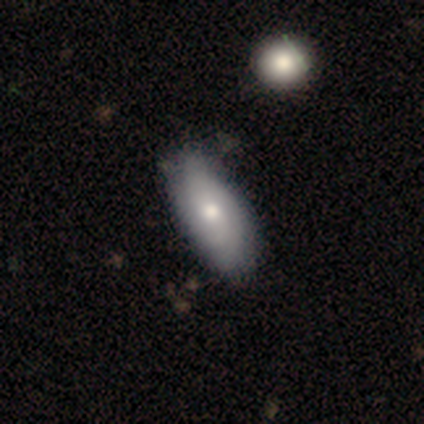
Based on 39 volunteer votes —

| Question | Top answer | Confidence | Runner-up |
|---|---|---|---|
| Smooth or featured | smooth | 51% | featured or disk (41%) |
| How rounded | in between | 100% | — |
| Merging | none | 42% | minor disturbance (17%) |